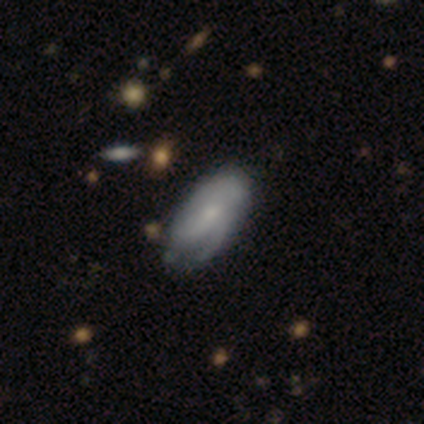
This is possibly a featured or disk galaxy (59%). It is clearly not viewed edge-on (98%). Bar: likely no (65%). Spiral arm pattern: clearly yes (80%). Spiral arm count: marginally can't tell (38%). Spiral winding: possibly medium (46%). Central bulge: marginally small (43%). Merging: marginally none (31%).